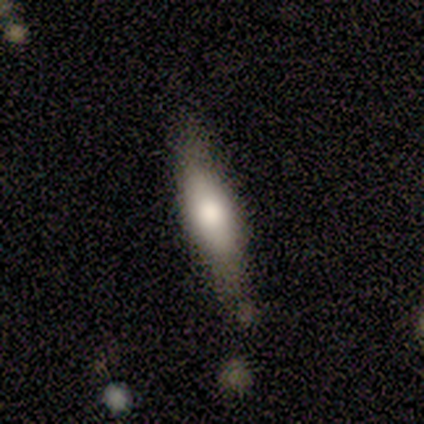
Smooth or featured: smooth — 61% (featured or disk — 33%)
How rounded: cigar-shaped — 55% (in between — 45%)
Merging: none — 76% (minor disturbance — 24%)